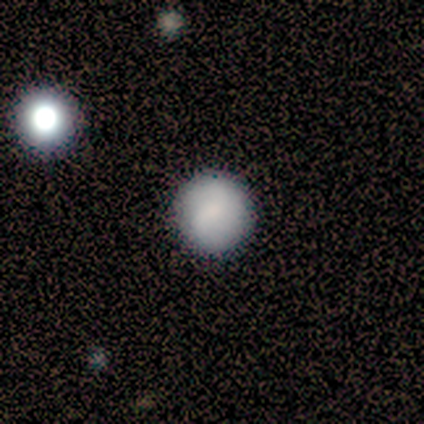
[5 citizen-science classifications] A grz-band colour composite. It shows a smooth galaxy with no disk features (80%) that is round (75%). Merging: none (80%).